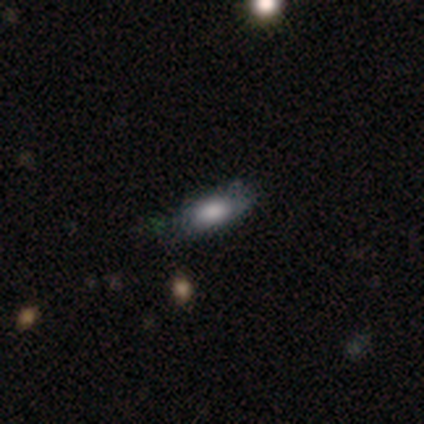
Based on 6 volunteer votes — This appears to be a smooth galaxy with no disk features (100%) that is in between round and cigar-shaped (100%). Merging: none (83%).